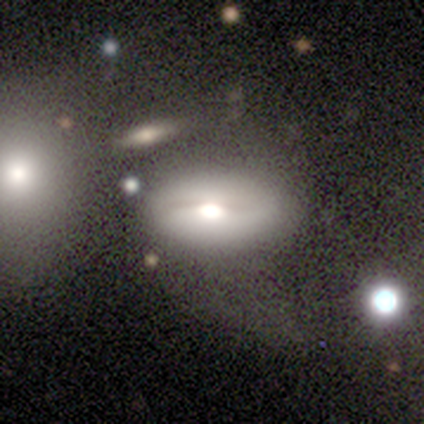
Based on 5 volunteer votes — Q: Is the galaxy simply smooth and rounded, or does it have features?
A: smooth — 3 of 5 (60%).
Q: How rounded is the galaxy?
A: in between — 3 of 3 (100%).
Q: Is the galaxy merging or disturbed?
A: none — 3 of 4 (75%).